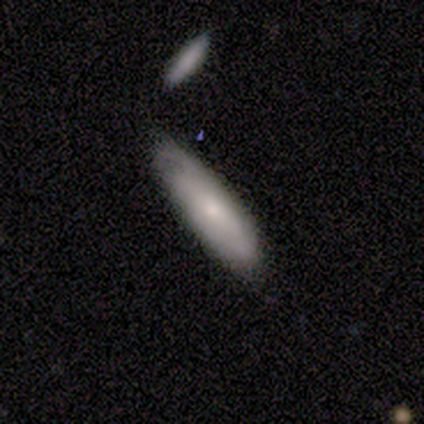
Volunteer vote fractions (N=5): Smooth or featured? smooth (80%)
How rounded? in between (50%, tied with cigar-shaped)
Merging? minor disturbance (60%)